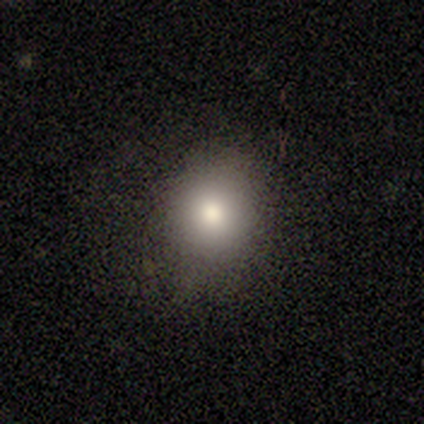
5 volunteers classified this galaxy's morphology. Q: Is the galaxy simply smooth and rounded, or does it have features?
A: smooth — 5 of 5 (100%).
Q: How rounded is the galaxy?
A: round — 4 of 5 (80%).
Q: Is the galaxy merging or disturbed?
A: none — 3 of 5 (60%).